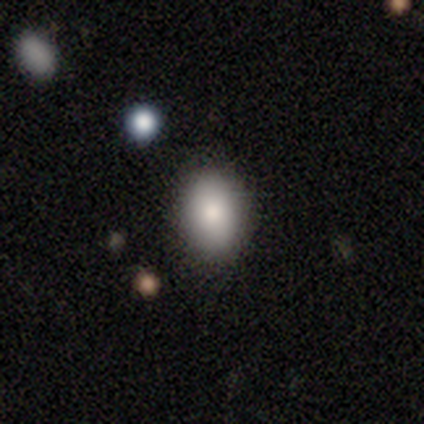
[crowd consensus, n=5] A smooth galaxy with no disk features (80%) that is in between round and cigar-shaped (75%).

Vote fractions:
- Smooth or featured? smooth: 80% / featured or disk: 20% / star or artifact: 0%
- How rounded? in between: 75% / round: 25% / cigar-shaped: 0%
- Merging? none: 80% / minor disturbance: 20% / major disturbance: 0% / merger: 0%